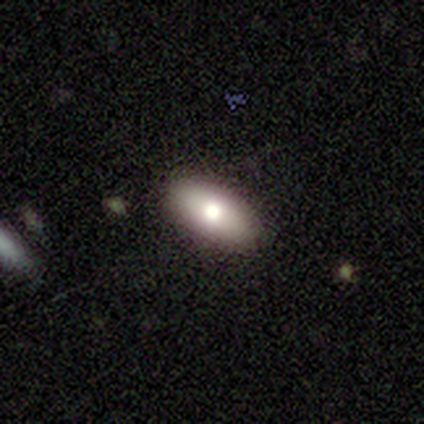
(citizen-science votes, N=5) Smooth or featured: smooth — 80% (featured or disk — 20%)
How rounded: in between — 100%
Merging: none — 100%